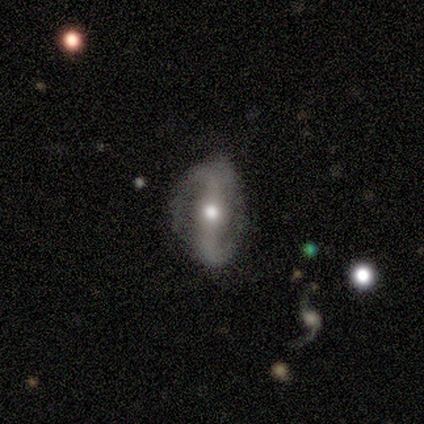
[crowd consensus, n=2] Volunteers were most divided on "smooth or featured" (2-way tie): smooth: 50%, featured or disk: 50%, star or artifact: 0%. More confident: how rounded — in between (100%); merging — none (100%).